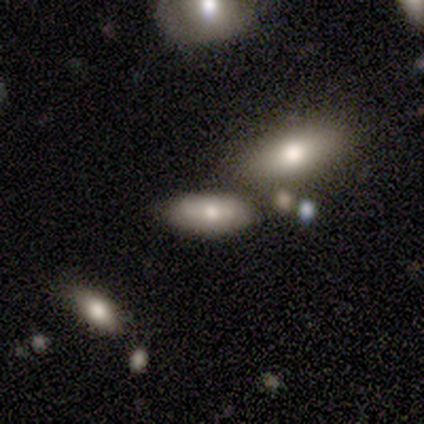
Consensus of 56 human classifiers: Smooth or featured? 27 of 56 (48%) said smooth. How rounded? 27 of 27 (100%) said in between. Merging? 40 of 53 (75%) said none.